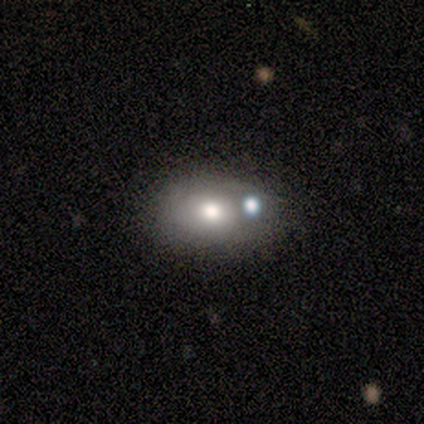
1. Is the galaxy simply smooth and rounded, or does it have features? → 50% smooth, 30% featured or disk, 20% star or artifact.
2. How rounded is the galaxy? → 60% in between, 40% round, 0% cigar-shaped.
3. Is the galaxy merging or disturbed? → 50% minor disturbance, 25% none, 25% major disturbance, 0% merger.